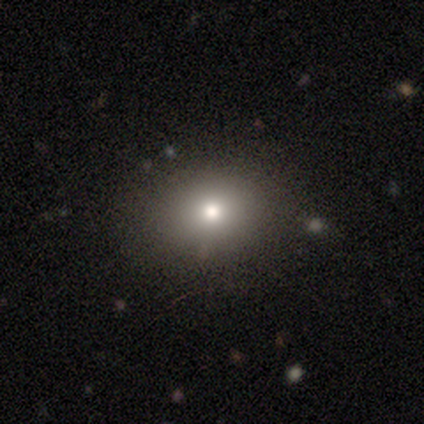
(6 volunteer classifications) This is possibly a smooth galaxy (50%). How rounded: clearly round (100%). Merging: clearly none (80%).